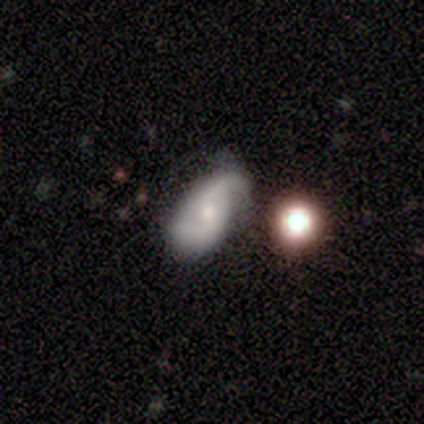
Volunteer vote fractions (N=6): A featured or disk galaxy (83%) with a weak bar (80%), 2 (100%) loose (60%) spiral arms (100%) and a moderate central bulge (40%, tied with small).

Vote fractions:
- Smooth or featured? featured or disk: 83% / smooth: 17% / star or artifact: 0%
- Edge-on disk? no: 100% / yes: 0%
- Bar? weak: 80% / no: 20% / strong: 0%
- Spiral arms? yes: 100% / no: 0%
- Spiral winding? loose: 60% / medium: 40% / tight: 0%
- Spiral arm count? 2: 100% / 1: 0% / 3: 0% / 4: 0% / more than 4: 0% / can't tell: 0%
- Bulge size? moderate: 40% (tied) / small: 40% (tied) / large: 20% / dominant: 0% / none: 0%
- Merging? none: 67% / minor disturbance: 33% / major disturbance: 0% / merger: 0%